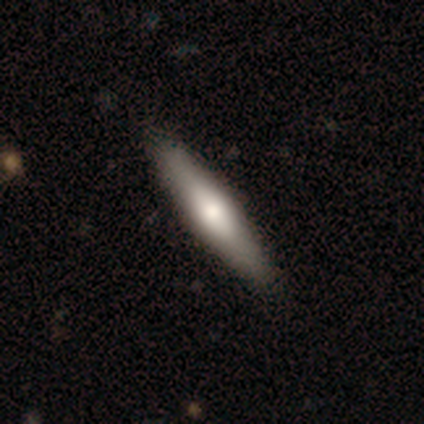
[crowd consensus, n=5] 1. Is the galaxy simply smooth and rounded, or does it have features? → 80% smooth, 20% featured or disk, 0% star or artifact.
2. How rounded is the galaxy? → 100% cigar-shaped, 0% round, 0% in between.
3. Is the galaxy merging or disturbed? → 100% none, 0% minor disturbance, 0% major disturbance, 0% merger.